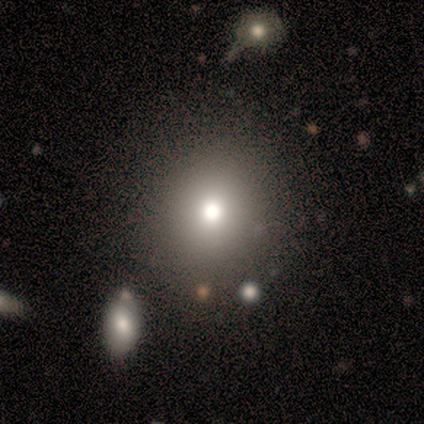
smooth 71%, star or artifact 29%, featured or disk 0%. Down the decision tree: how rounded — round (80%); merging — none (100%).